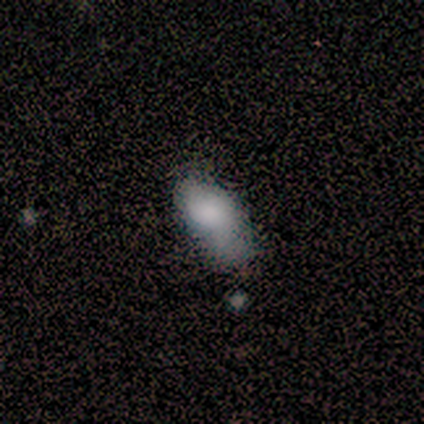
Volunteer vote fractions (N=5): Smooth or featured? 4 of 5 (80%) said smooth. How rounded? 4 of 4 (100%) said in between. Merging? 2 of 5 (40%, tied with major disturbance) said none.